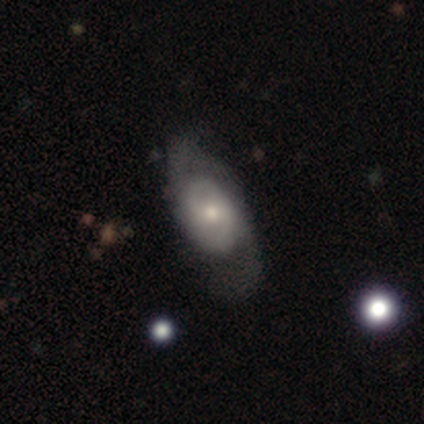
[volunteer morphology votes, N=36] smooth-or-featured: featured or disk: 67% | smooth: 31% | star or artifact: 3%
  disk-edge-on: no: 88% | yes: 12%
    bar: no: 57% | weak: 38% | strong: 5%
    has-spiral-arms: yes: 81% | no: 19%
      spiral-winding: medium: 53% | tight: 29% | loose: 18%
      spiral-arm-count: 2: 71% | can't tell: 18% | 1: 6% | more than 4: 6% | 3: 0% | 4: 0%
    bulge-size: small: 52% | moderate: 43% | dominant: 5% | large: 0% | none: 0%
  merging: none: 43% | major disturbance: 34% | minor disturbance: 23% | merger: 0%